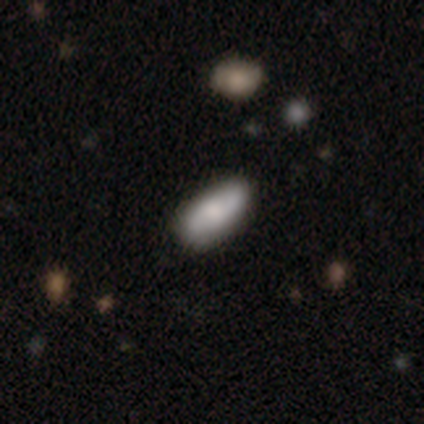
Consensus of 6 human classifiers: smooth-or-featured: smooth: 67% | featured or disk: 33% | star or artifact: 0%
  how-rounded: in between: 50% (tied) | cigar-shaped: 50% (tied) | round: 0%
  merging: none: 67% | minor disturbance: 33% | major disturbance: 0% | merger: 0%